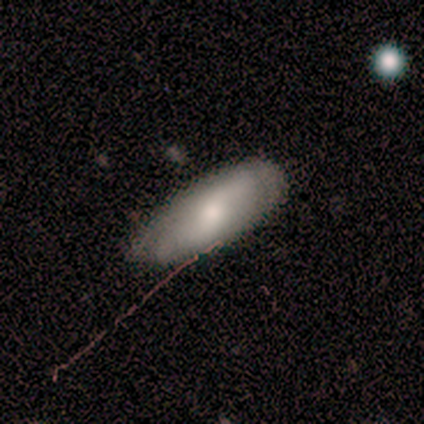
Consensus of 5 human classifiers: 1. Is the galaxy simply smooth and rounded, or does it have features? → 60% smooth, 40% featured or disk, 0% star or artifact.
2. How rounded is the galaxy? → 100% in between, 0% round, 0% cigar-shaped.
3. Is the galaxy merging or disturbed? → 100% none, 0% minor disturbance, 0% major disturbance, 0% merger.